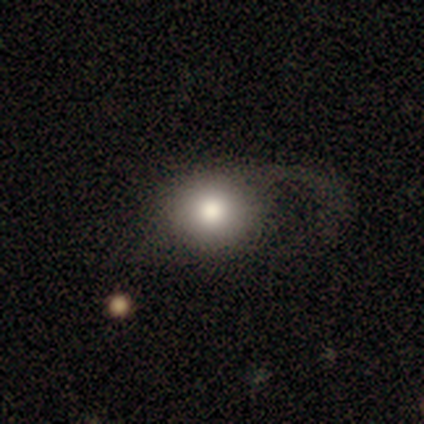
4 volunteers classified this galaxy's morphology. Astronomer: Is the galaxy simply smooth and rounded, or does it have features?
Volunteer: smooth — 75%.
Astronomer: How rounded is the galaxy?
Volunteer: round — 100%.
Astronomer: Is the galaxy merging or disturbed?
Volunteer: none — 67%.